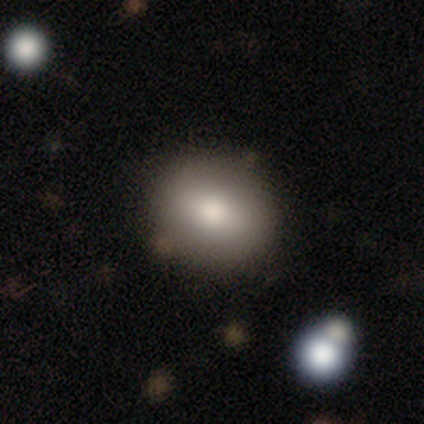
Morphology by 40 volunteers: Volunteers were most divided on "how rounded": in between: 67%, round: 33%, cigar-shaped: 0%. More confident: merging — none (76%); smooth or featured — smooth (75%).